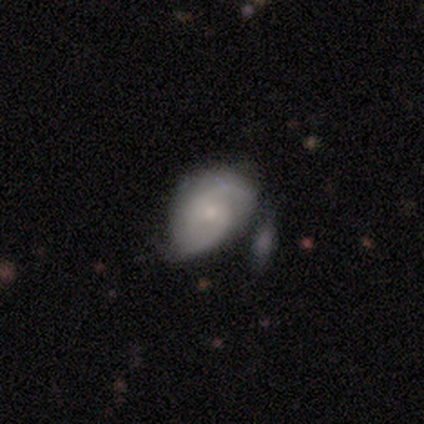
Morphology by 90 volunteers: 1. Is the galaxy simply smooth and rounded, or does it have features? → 66% featured or disk, 30% smooth, 4% star or artifact.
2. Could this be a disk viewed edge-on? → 97% no, 3% yes.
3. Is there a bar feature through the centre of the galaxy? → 63% no, 32% weak, 5% strong.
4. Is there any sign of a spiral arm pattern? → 89% yes, 11% no.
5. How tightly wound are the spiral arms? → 45% medium, 31% loose, 24% tight.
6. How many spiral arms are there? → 84% 2, 14% can't tell, 2% 1, 0% 3, 0% 4, 0% more than 4.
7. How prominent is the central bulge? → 75% small, 16% moderate, 7% none, 2% dominant, 0% large.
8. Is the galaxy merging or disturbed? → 38% none, 37% minor disturbance, 16% major disturbance, 8% merger.